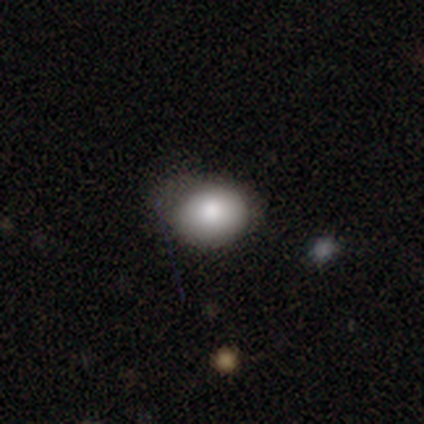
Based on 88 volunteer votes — Morphology: type=smooth (83%); roundness=round (56%); merging=none (56%).